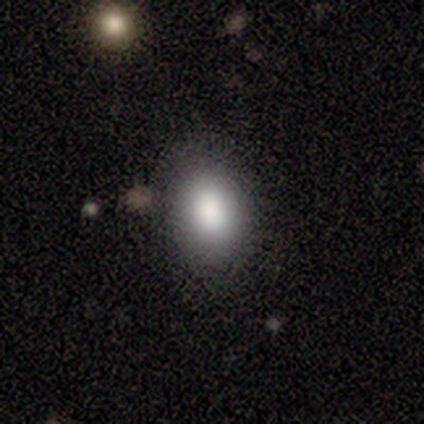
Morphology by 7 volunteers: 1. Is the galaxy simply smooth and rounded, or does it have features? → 57% smooth, 29% star or artifact, 14% featured or disk.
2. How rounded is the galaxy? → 100% in between, 0% round, 0% cigar-shaped.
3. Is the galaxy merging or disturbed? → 100% none, 0% minor disturbance, 0% major disturbance, 0% merger.